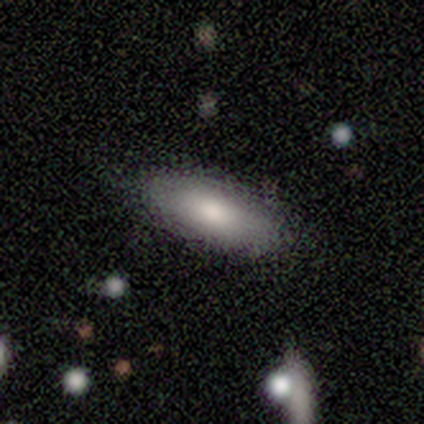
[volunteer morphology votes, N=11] This is clearly a smooth galaxy (91%). How rounded: likely in between (60%). Merging: clearly none (82%).